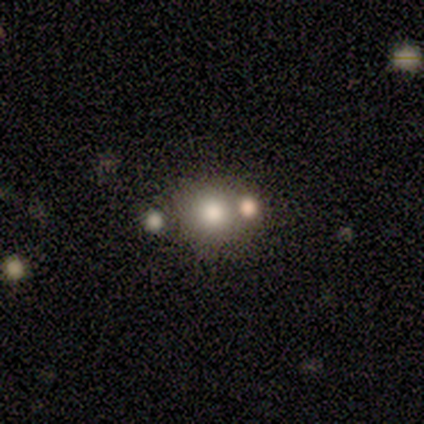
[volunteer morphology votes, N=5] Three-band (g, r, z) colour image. It shows a smooth galaxy with no disk features (60%) that is round (100%). Merging: none (67%).